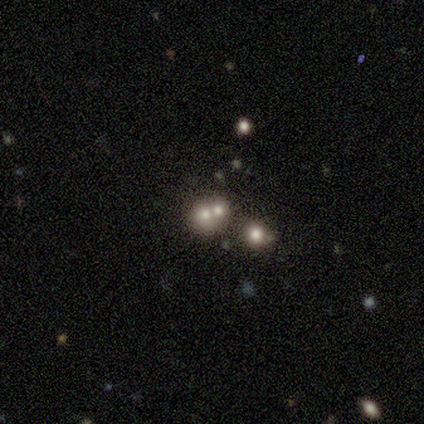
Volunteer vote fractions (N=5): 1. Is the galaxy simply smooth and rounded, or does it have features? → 80% smooth, 20% featured or disk, 0% star or artifact.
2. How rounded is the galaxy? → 75% round, 25% in between, 0% cigar-shaped.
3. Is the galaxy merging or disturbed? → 60% none, 40% merger, 0% minor disturbance, 0% major disturbance.